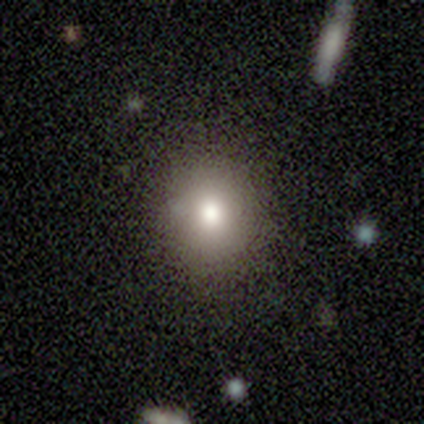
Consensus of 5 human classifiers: Volunteers were most divided on "merging": none: 60%, minor disturbance: 40%, major disturbance: 0%, merger: 0%. More confident: smooth or featured — smooth (80%); how rounded — round (75%).